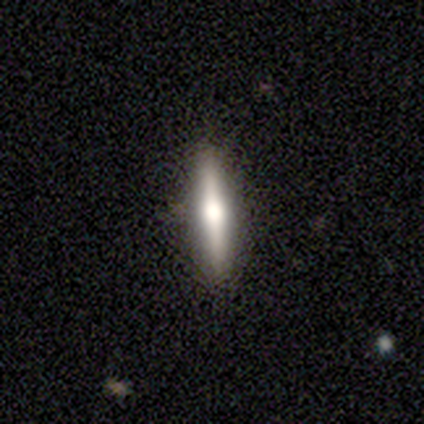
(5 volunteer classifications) Overall: smooth (60%; featured or disk 40%). How rounded: cigar-shaped (67%; in between 33%). Merging: none (100%).